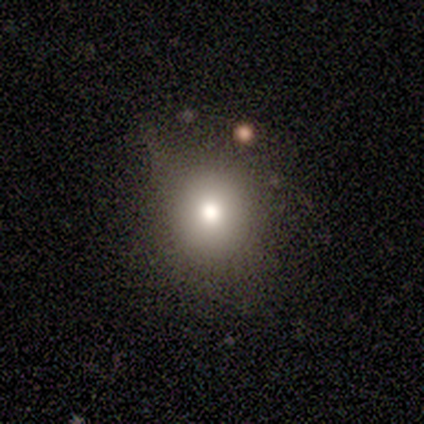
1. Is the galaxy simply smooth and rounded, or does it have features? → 80% smooth, 20% star or artifact, 0% featured or disk.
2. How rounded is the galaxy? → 100% round, 0% in between, 0% cigar-shaped.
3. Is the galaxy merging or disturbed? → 50% minor disturbance, 25% none, 25% major disturbance, 0% merger.